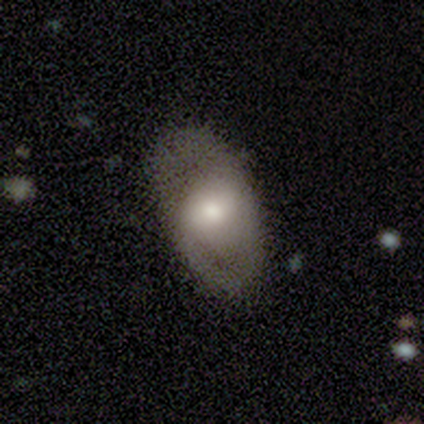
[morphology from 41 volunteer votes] A featured or disk galaxy (68%) with no bar (44%), no spiral arms (56%) and a moderate central bulge (48%). Merging: none (68%).